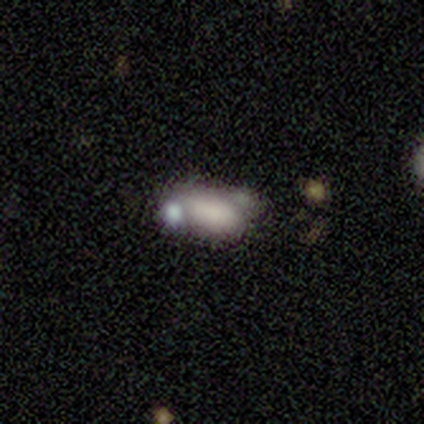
Smooth or featured?
  - smooth: 100% *
  - featured or disk: 0%
  - star or artifact: 0%
How rounded?
  - in between: 80% *
  - cigar-shaped: 20%
  - round: 0%
Merging?
  - none: 40% * (tied)
  - merger: 40% * (tied)
  - major disturbance: 20%
  - minor disturbance: 0%